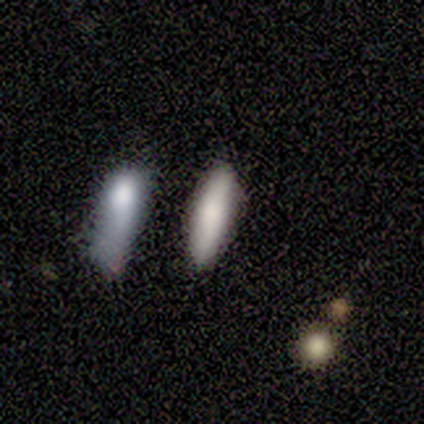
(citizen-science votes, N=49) smooth 82%, featured or disk 14%, star or artifact 4%. Down the decision tree: how rounded — cigar-shaped (70%); merging — none (81%).